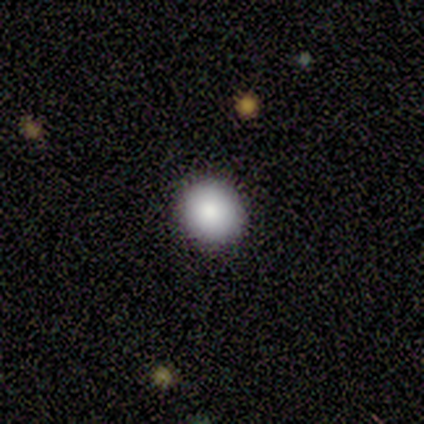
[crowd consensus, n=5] Q: Smooth or featured?
A: smooth (60%); runner-up: star or artifact (40%)
Q: How rounded?
A: round (100%)
Q: Merging?
A: none (100%)